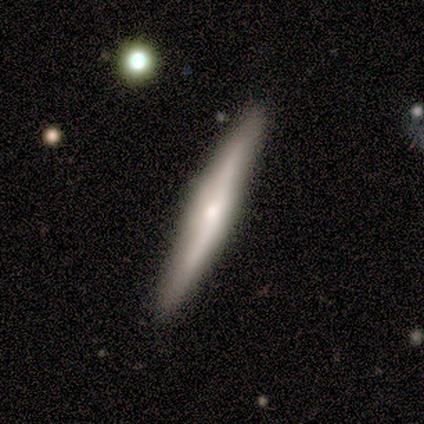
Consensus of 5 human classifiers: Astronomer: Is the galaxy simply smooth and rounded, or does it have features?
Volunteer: smooth — 60% (runner-up: featured or disk, 40%).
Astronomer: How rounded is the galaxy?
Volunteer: cigar-shaped — 100%.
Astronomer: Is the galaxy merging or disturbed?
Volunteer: none — 100%.